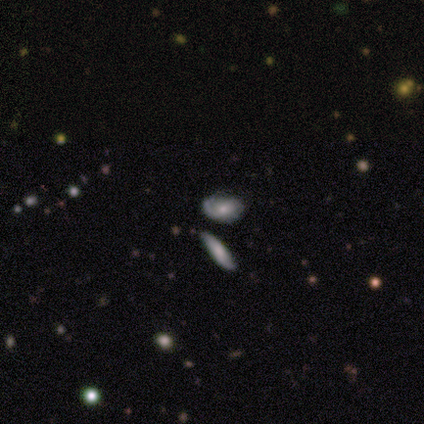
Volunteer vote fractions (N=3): This is likely a featured or disk galaxy (67%). It is clearly not viewed edge-on (100%). Bar: clearly no (100%). Spiral arm pattern: clearly yes (100%). Spiral arm count: clearly can't tell (100%). Spiral winding: clearly tight (100%). Central bulge: clearly moderate (100%). Merging: likely none (67%).